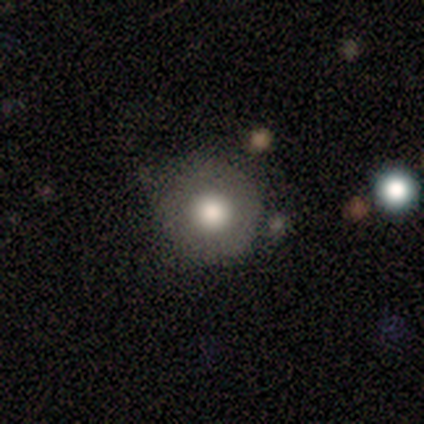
smooth_or_featured: smooth (p=0.62) [alt: featured or disk p=0.25]
how_rounded: round (p=1.00)
merging: none (p=0.71) [alt: minor disturbance p=0.29]